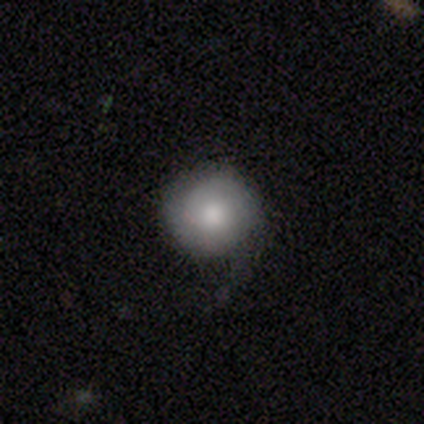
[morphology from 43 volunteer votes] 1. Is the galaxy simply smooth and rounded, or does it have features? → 65% smooth, 30% featured or disk, 5% star or artifact.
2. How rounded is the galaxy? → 89% round, 11% in between, 0% cigar-shaped.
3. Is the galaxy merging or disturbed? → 71% none, 22% minor disturbance, 7% major disturbance, 0% merger.